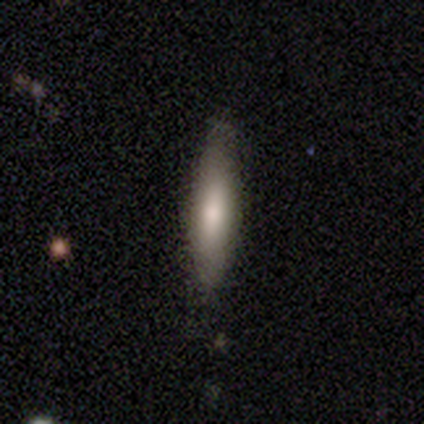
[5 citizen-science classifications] This is clearly a smooth galaxy (80%). How rounded: likely cigar-shaped (75%). Merging: clearly none (80%).